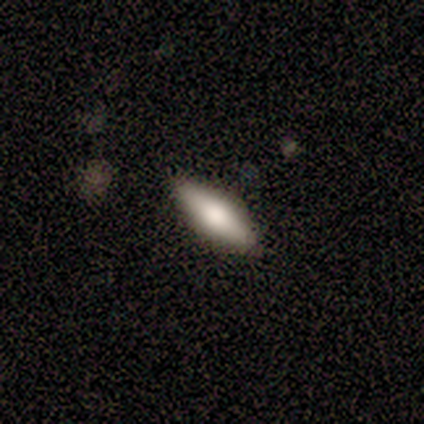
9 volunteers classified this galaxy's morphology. A featured or disk galaxy (56%) viewed edge-on (100%) with a rounded central bulge (60%). Merging: none (89%).